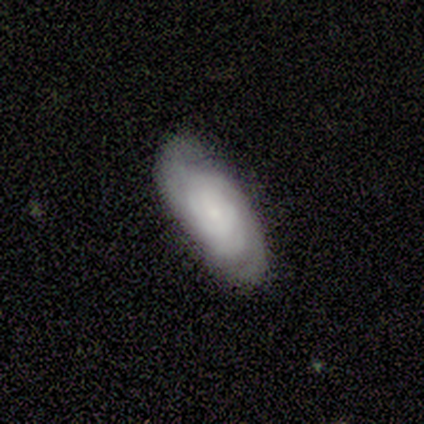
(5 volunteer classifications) Q: Smooth or featured?
A: featured or disk (80%); runner-up: smooth (20%)
Q: Edge-on disk?
A: no (100%)
Q: Bar?
A: no (75%); runner-up: weak (25%)
Q: Spiral arms?
A: yes (100%)
Q: Spiral winding?
A: tight (75%); runner-up: medium (25%)
Q: Spiral arm count?
A: 2 (50%); runner-up: 3 (25%)
Q: Bulge size?
A: small (75%); runner-up: none (25%)
Q: Merging?
A: none (80%); runner-up: minor disturbance (20%)